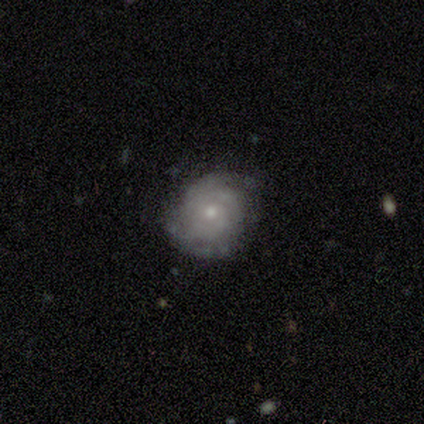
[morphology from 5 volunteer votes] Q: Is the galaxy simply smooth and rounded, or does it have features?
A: featured or disk — 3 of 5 (60%).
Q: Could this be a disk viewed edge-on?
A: no — 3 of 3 (100%).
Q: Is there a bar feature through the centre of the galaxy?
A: no — 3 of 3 (100%).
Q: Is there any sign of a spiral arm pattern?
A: yes — 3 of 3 (100%).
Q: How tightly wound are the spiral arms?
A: tight — 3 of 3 (100%).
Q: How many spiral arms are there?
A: can't tell — 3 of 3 (100%).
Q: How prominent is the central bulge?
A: small — 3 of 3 (100%).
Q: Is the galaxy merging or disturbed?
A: none — 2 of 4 (50%, tied with minor disturbance).